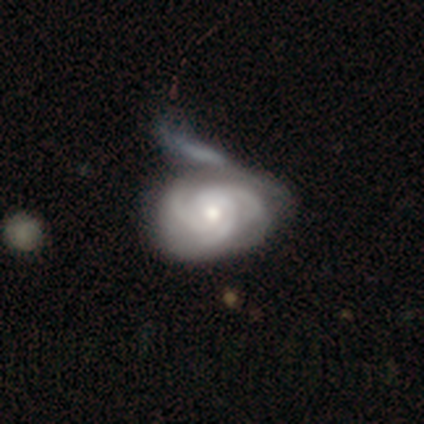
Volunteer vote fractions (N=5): featured or disk 80%, smooth 20%, star or artifact 0%. Down the decision tree: edge-on disk — no (100%); bar — no (75%); spiral arms — yes (75%); spiral arm count — 3 (100%); spiral winding — medium (67%); bulge size — moderate (75%); merging — none (40%, tied with major disturbance).